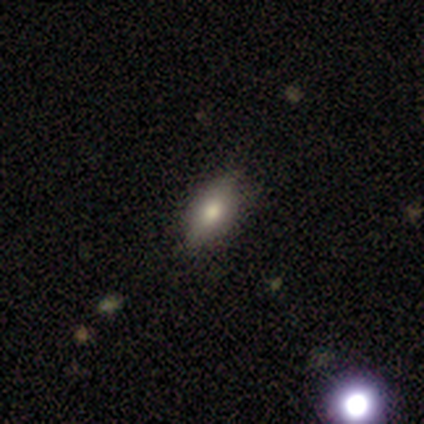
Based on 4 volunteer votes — Smooth or featured: smooth — 100%
How rounded: in between — 100%
Merging: none — 100%